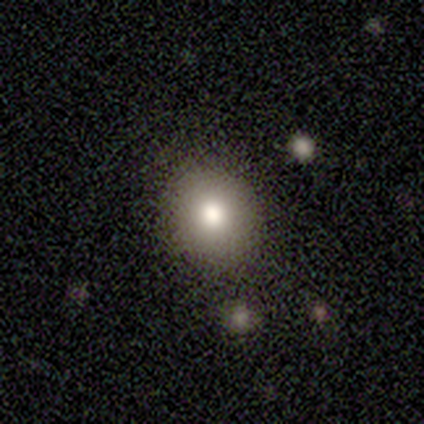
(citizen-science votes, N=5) smooth-or-featured: smooth: 80% | featured or disk: 20% | star or artifact: 0%
  how-rounded: round: 75% | in between: 25% | cigar-shaped: 0%
  merging: none: 100% | minor disturbance: 0% | major disturbance: 0% | merger: 0%